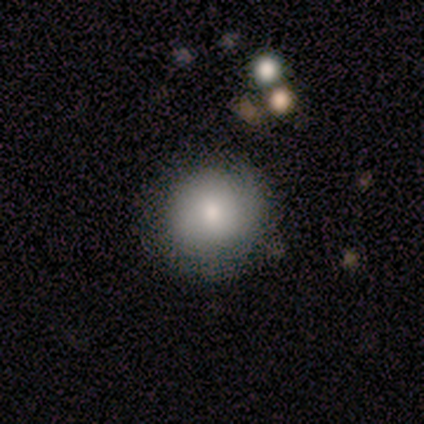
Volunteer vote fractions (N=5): Volunteers were most divided on "merging": none: 75%, minor disturbance: 25%, major disturbance: 0%, merger: 0%. More confident: how rounded — round (100%); smooth or featured — smooth (80%).